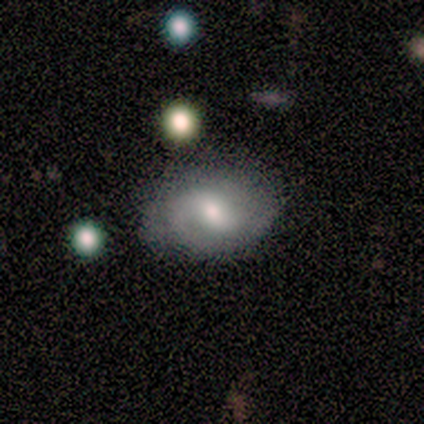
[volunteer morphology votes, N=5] This appears to be a featured or disk galaxy (80%) with a weak bar (75%), loose (75%) spiral arms (100%) and a moderate central bulge (75%). Merging: none (60%).